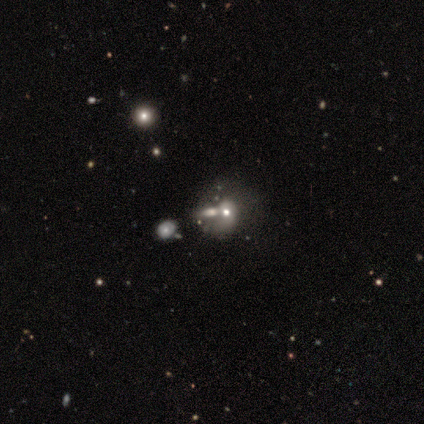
Smooth or featured: star or artifact — 60% (featured or disk — 40%)